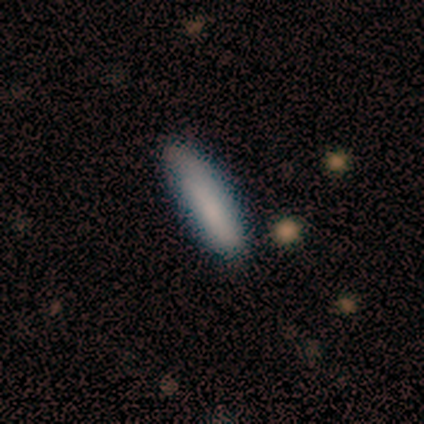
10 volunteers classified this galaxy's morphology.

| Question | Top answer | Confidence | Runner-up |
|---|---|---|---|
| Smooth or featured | smooth | 90% | featured or disk (10%) |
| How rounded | cigar-shaped | 89% | in between (11%) |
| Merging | none | 90% | minor disturbance (10%) |